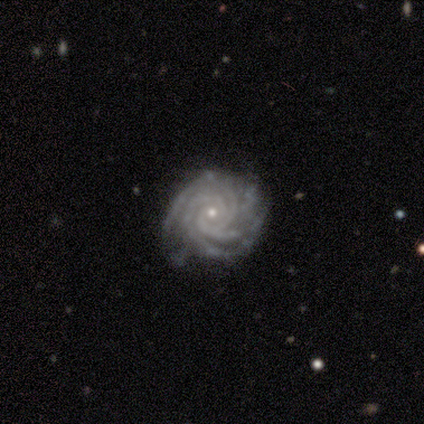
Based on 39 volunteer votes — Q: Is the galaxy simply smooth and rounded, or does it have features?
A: featured or disk — 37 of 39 (95%).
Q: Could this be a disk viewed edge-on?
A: no — 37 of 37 (100%).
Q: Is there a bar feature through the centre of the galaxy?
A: no — 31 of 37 (84%).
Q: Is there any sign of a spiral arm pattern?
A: yes — 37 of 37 (100%).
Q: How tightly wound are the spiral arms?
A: tight — 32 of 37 (86%).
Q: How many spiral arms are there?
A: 3 — 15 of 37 (41%).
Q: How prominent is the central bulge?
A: small — 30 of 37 (81%).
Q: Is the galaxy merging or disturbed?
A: none — 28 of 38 (74%).